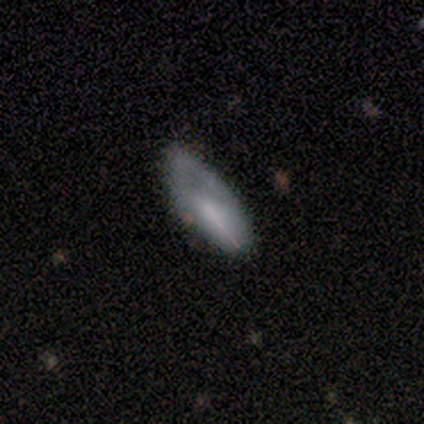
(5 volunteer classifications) This is likely a smooth galaxy (60%). How rounded: likely in between (67%). Merging: possibly none (50%, tied with minor disturbance).